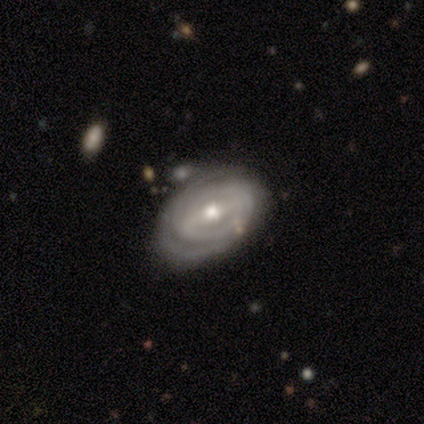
smooth_or_featured: featured or disk (p=1.00)
disk_edge_on: no (p=0.88) [alt: yes p=0.12]
bar: strong (p=0.57) [alt: weak p=0.29]
has_spiral_arms: yes (p=0.86) [alt: no p=0.14]
spiral_winding: tight (p=0.67) [alt: medium p=0.33]
spiral_arm_count: can't tell (p=0.50) [alt: 2 p=0.33]
bulge_size: moderate (p=0.43) [alt: large p=0.29]
merging: merger (p=0.50) [alt: none p=0.38]